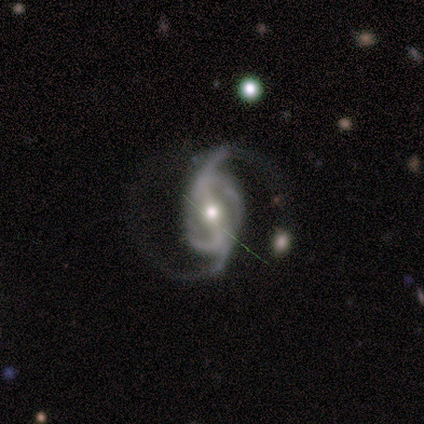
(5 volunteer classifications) Volunteers were most divided on "bar": weak: 60%, strong: 40%, no: 0%. More confident: smooth or featured — featured or disk (100%); edge-on disk — no (100%); spiral arms — yes (100%); bulge size — moderate (60%); spiral winding — medium (60%); spiral arm count — 2 (60%); merging — none (60%).